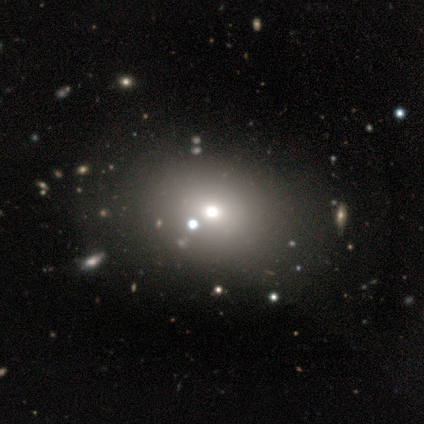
Smooth or featured? 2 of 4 (50%) said star or artifact.